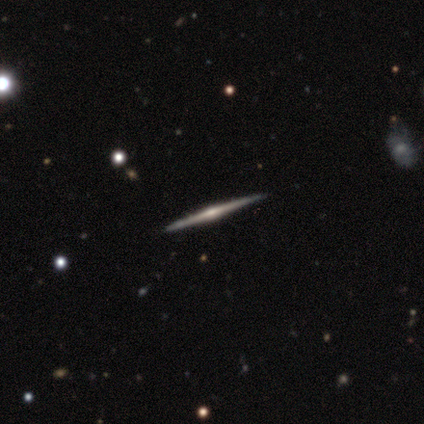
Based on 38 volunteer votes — A featured or disk galaxy (89%) viewed edge-on (100%) with a rounded central bulge (82%). Merging: none (92%).